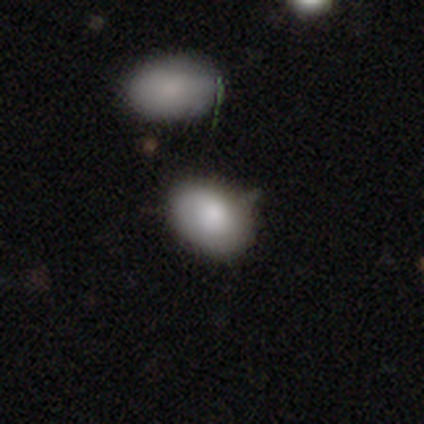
smooth 60%, featured or disk 20%, star or artifact 20%. Down the decision tree: how rounded — in between (100%); merging — merger (50%).